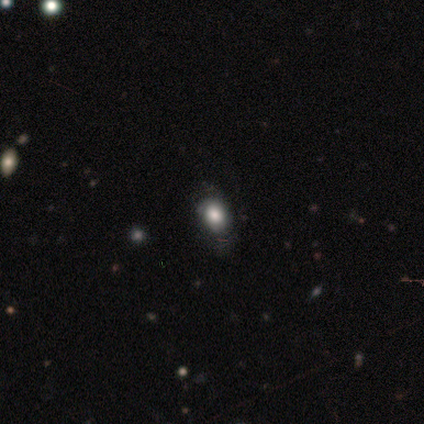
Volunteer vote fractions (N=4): Smooth or featured? 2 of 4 (50%, tied with featured or disk) said smooth. How rounded? 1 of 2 (50%, tied with in between) said round. Merging? 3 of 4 (75%) said minor disturbance.